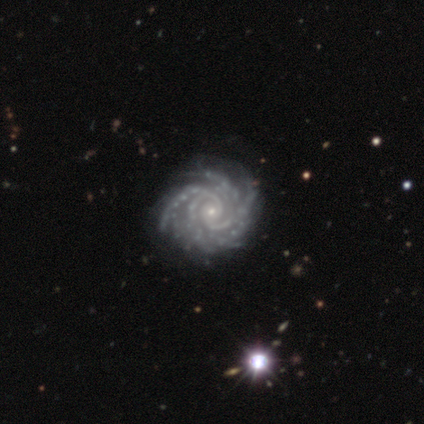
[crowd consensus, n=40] This is clearly a featured or disk galaxy (92%). It is clearly not viewed edge-on (100%). Bar: likely no (73%). Spiral arm pattern: clearly yes (100%). Spiral arm count: marginally more than 4 (43%). Spiral winding: likely tight (76%). Central bulge: clearly small (84%). Merging: likely none (71%).